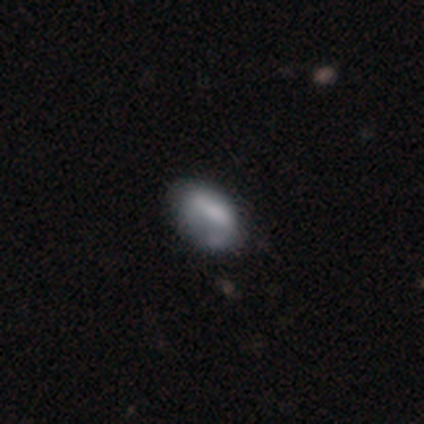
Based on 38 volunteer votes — Morphology: type=smooth (58%); roundness=in between (100%); merging=none (45%).